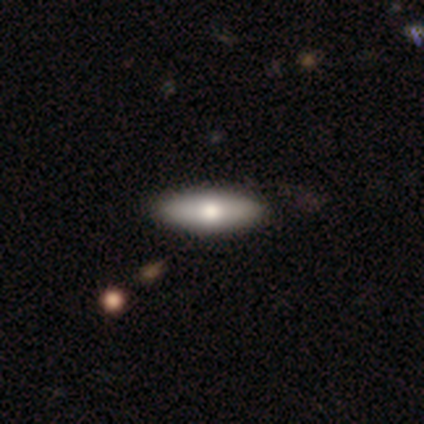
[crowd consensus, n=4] This appears to be a smooth galaxy with no disk features (75%) that is in between round and cigar-shaped (67%). Merging: none (75%).